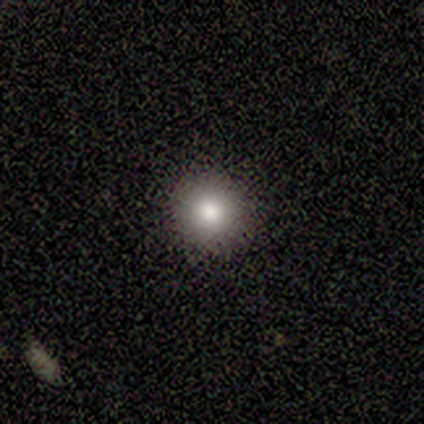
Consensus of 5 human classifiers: Smooth or featured? 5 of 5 (100%) said smooth. How rounded? 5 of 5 (100%) said round. Merging? 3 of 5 (60%) said none.